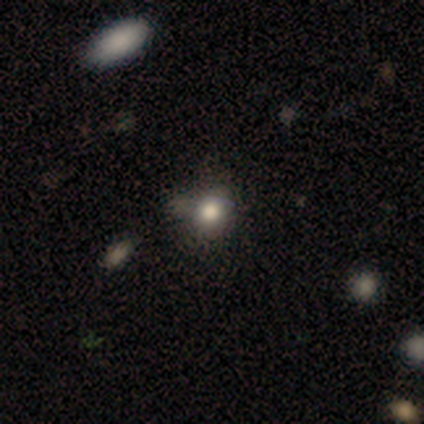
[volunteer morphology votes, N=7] Smooth or featured? smooth (100%)
How rounded? round (57%)
Merging? none (71%)